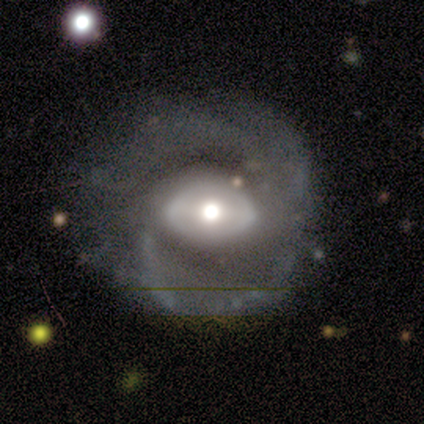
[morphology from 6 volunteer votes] A featured or disk galaxy (83%) with no bar (60%), 2 (80%) medium (60%) spiral arms (100%) and a moderate central bulge (100%).

Vote fractions:
- Smooth or featured? featured or disk: 83% / smooth: 17% / star or artifact: 0%
- Edge-on disk? no: 100% / yes: 0%
- Bar? no: 60% / weak: 40% / strong: 0%
- Spiral arms? yes: 100% / no: 0%
- Spiral winding? medium: 60% / tight: 20% / loose: 20%
- Spiral arm count? 2: 80% / 3: 20% / 1: 0% / 4: 0% / more than 4: 0% / can't tell: 0%
- Bulge size? moderate: 100% / dominant: 0% / large: 0% / small: 0% / none: 0%
- Merging? none: 100% / minor disturbance: 0% / major disturbance: 0% / merger: 0%